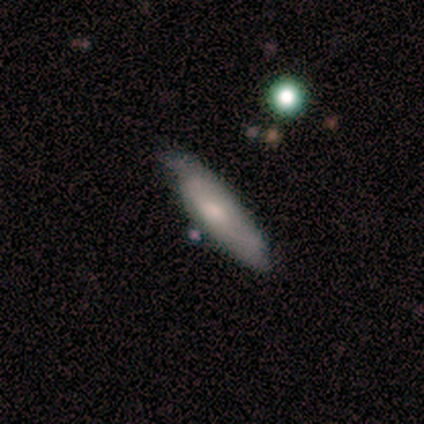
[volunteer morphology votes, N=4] smooth 50% (tied), featured or disk 50% (tied), star or artifact 0%. Down the decision tree: how rounded — round (50%, tied with cigar-shaped); merging — minor disturbance (50%, tied with major disturbance).